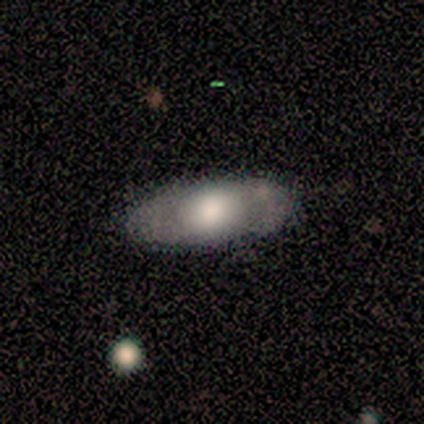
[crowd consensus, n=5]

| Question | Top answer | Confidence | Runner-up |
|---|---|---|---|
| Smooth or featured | featured or disk | 60% | smooth (40%) |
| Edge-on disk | no | 67% | yes (33%) |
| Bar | no | 100% | — |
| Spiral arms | no | 100% | — |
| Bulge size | moderate | 100% | — |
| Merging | none | 100% | — |